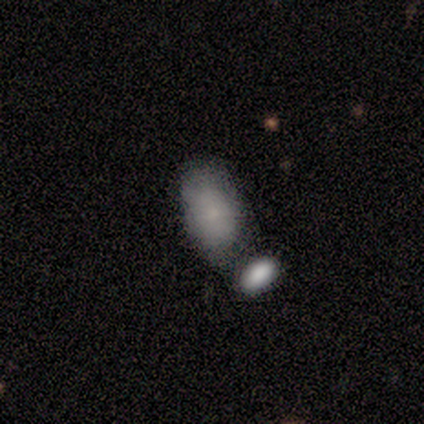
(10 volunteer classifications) This is likely a smooth galaxy (70%). How rounded: clearly in between (100%). Merging: possibly merger (56%).